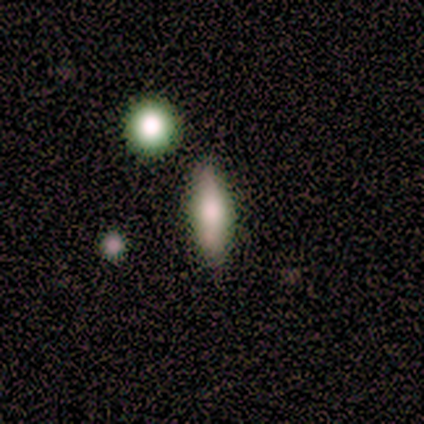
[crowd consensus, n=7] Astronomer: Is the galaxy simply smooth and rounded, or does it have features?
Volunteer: smooth — 100%.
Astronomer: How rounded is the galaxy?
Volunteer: in between — 57% (runner-up: cigar-shaped, 43%).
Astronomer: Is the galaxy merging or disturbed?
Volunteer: none — 71%.